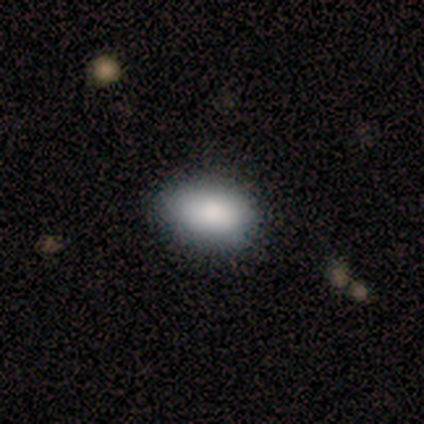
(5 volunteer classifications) A smooth galaxy with no disk features (100%) that is in between round and cigar-shaped (60%).

Vote fractions:
- Smooth or featured? smooth: 100% / featured or disk: 0% / star or artifact: 0%
- How rounded? in between: 60% / round: 40% / cigar-shaped: 0%
- Merging? none: 100% / minor disturbance: 0% / major disturbance: 0% / merger: 0%